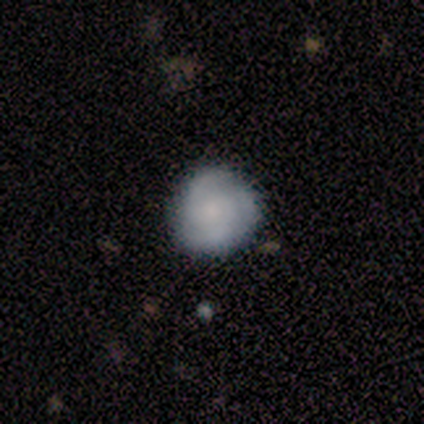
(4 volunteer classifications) Q: Smooth or featured?
A: featured or disk (75%); runner-up: smooth (25%)
Q: Edge-on disk?
A: no (100%)
Q: Bar?
A: no (100%)
Q: Spiral arms?
A: yes (67%); runner-up: no (33%)
Q: Spiral winding?
A: tight (50%); tied with: loose (50%)
Q: Spiral arm count?
A: 2 (50%); tied with: 3 (50%)
Q: Bulge size?
A: small (67%); runner-up: none (33%)
Q: Merging?
A: none (75%); runner-up: minor disturbance (25%)